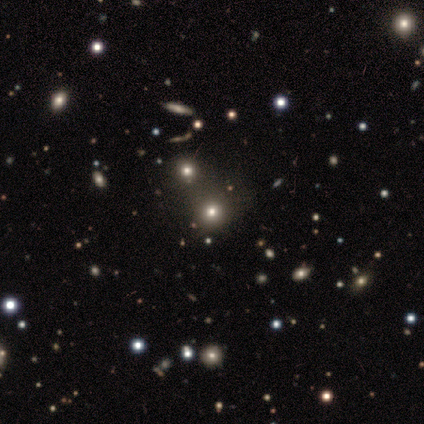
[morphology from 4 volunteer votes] Q: Smooth or featured?
A: smooth (75%); runner-up: star or artifact (25%)
Q: How rounded?
A: round (67%); runner-up: in between (33%)
Q: Merging?
A: merger (67%); runner-up: none (33%)